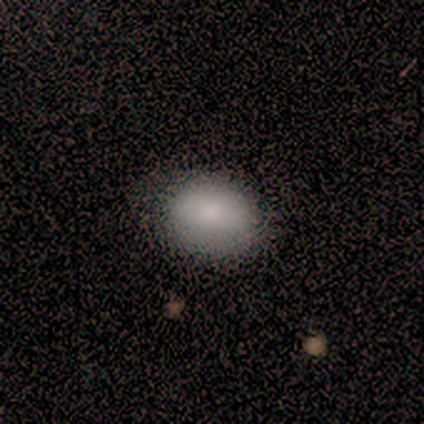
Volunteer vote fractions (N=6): smooth 83%, featured or disk 17%, star or artifact 0%. Down the decision tree: how rounded — in between (100%); merging — none (83%).